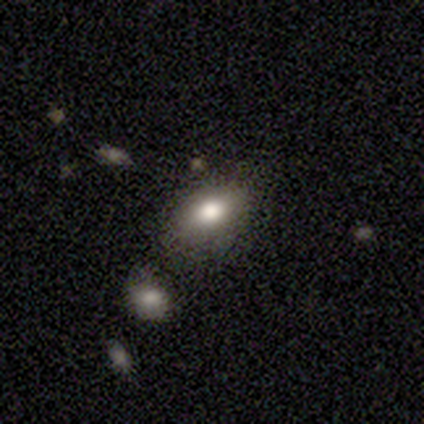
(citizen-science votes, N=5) Smooth or featured: smooth — 100%
How rounded: in between — 100%
Merging: none — 80% (minor disturbance — 20%)